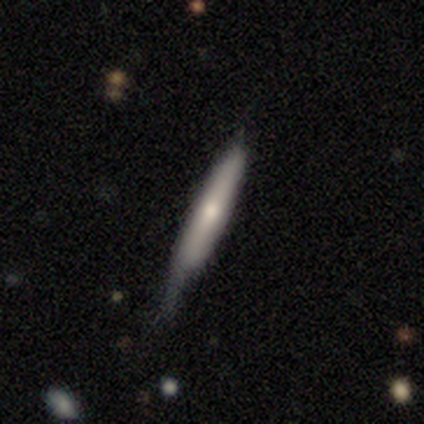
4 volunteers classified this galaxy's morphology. Q: Smooth or featured?
A: smooth (75%); runner-up: featured or disk (25%)
Q: How rounded?
A: cigar-shaped (100%)
Q: Merging?
A: none (50%); tied with: minor disturbance (50%)